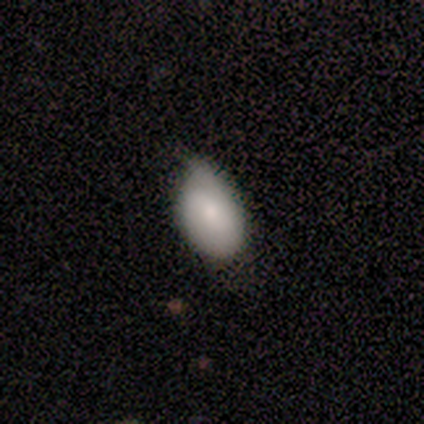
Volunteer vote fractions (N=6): A smooth galaxy with no disk features (100%) that is in between round and cigar-shaped (100%).

Vote fractions:
- Smooth or featured? smooth: 100% / featured or disk: 0% / star or artifact: 0%
- How rounded? in between: 100% / round: 0% / cigar-shaped: 0%
- Merging? none: 67% / minor disturbance: 33% / major disturbance: 0% / merger: 0%